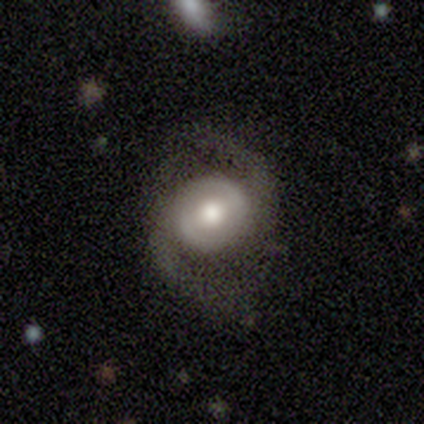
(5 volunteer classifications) smooth_or_featured: featured or disk (p=1.00)
disk_edge_on: no (p=1.00)
bar: weak (p=0.60) [alt: no p=0.40]
has_spiral_arms: yes (p=1.00)
spiral_winding: loose (p=0.80) [alt: medium p=0.20]
spiral_arm_count: 2 (p=1.00)
bulge_size: small (p=0.60) [alt: large p=0.20]
merging: none (p=0.80) [alt: major disturbance p=0.20]